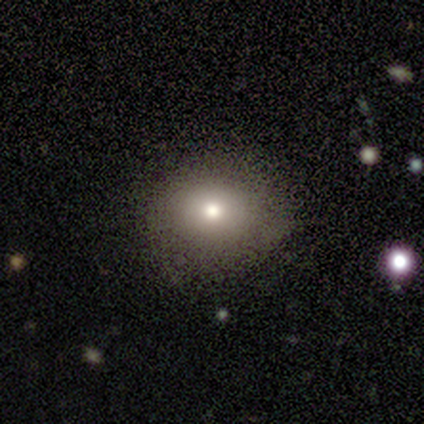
A smooth galaxy with no disk features (80%) that is round (50%, tied with in between).

Vote fractions:
- Smooth or featured? smooth: 80% / featured or disk: 20% / star or artifact: 0%
- How rounded? round: 50% (tied) / in between: 50% (tied) / cigar-shaped: 0%
- Merging? none: 100% / minor disturbance: 0% / major disturbance: 0% / merger: 0%